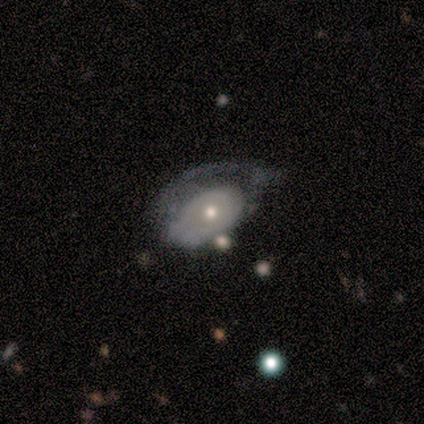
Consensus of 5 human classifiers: A featured or disk galaxy (60%) with no bar (100%), no spiral arms (67%) and a moderate central bulge (67%).

Vote fractions:
- Smooth or featured? featured or disk: 60% / smooth: 20% / star or artifact: 20%
- Edge-on disk? no: 100% / yes: 0%
- Bar? no: 100% / strong: 0% / weak: 0%
- Spiral arms? no: 67% / yes: 33%
- Bulge size? moderate: 67% / small: 33% / dominant: 0% / large: 0% / none: 0%
- Merging? major disturbance: 75% / minor disturbance: 25% / none: 0% / merger: 0%